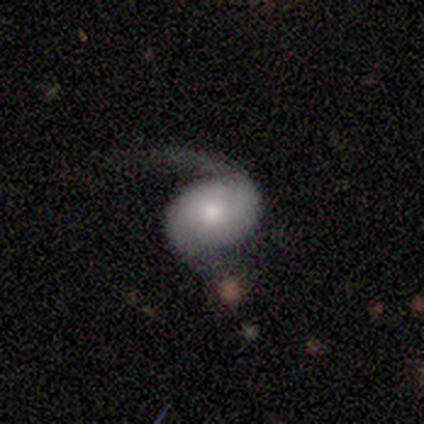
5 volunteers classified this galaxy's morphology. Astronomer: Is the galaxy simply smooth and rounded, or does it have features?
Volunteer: featured or disk — 80%.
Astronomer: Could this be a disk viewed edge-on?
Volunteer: no — 100%.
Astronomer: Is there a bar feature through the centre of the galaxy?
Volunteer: no — 75%.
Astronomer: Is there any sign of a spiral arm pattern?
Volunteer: yes — 100%.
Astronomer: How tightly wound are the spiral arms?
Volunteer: tight — 50%.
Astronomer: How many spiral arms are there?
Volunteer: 2 — 75%.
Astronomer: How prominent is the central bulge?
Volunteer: small — 100%.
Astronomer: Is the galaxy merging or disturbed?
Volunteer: none — 60% (runner-up: major disturbance, 40%).